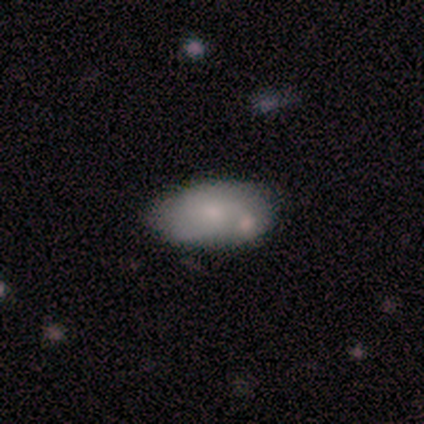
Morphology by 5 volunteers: smooth 80%, featured or disk 20%, star or artifact 0%. Down the decision tree: how rounded — in between (100%); merging — none (60%).